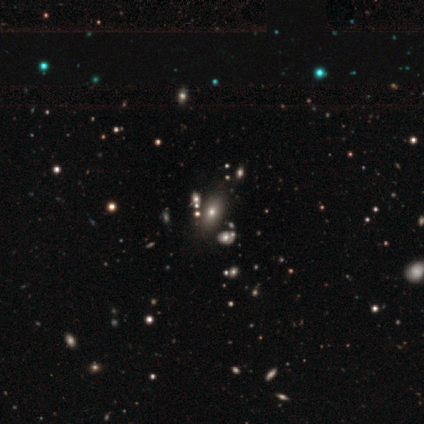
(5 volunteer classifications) smooth-or-featured: smooth: 80% | star or artifact: 20% | featured or disk: 0%
  how-rounded: in between: 100% | round: 0% | cigar-shaped: 0%
  merging: none: 50% | minor disturbance: 25% | merger: 25% | major disturbance: 0%